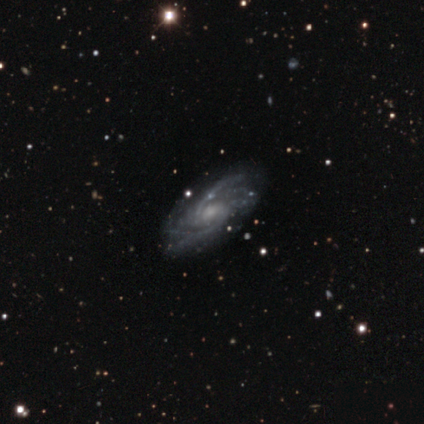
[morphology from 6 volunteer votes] A featured or disk galaxy (83%) with no bar (80%), 2 (80%) tight (60%) spiral arms (100%) and a small central bulge (60%). Merging: none (83%).